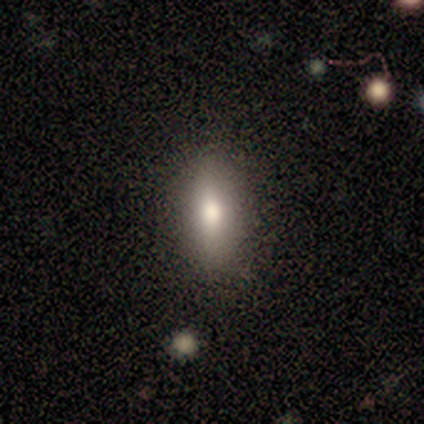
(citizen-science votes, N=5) Smooth or featured? 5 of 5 (100%) said smooth. How rounded? 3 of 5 (60%) said in between. Merging? 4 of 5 (80%) said none.